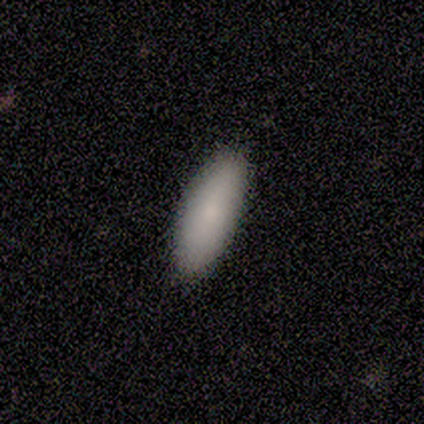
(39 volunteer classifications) smooth 92%, featured or disk 5%, star or artifact 3%. Down the decision tree: how rounded — in between (67%); merging — none (76%).